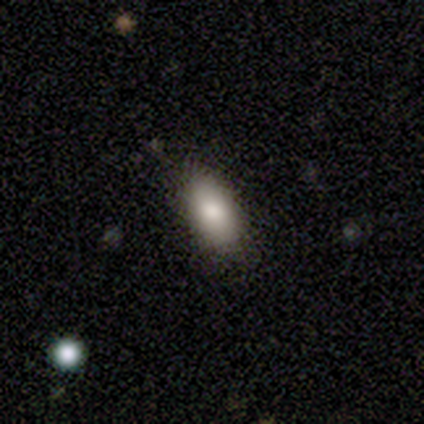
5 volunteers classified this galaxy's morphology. smooth 100%, featured or disk 0%, star or artifact 0%. Down the decision tree: how rounded — in between (40%, tied with cigar-shaped); merging — none (60%).